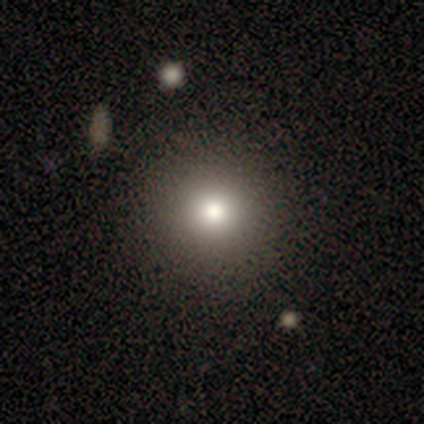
smooth-or-featured: smooth: 40% (tied) | star or artifact: 40% (tied) | featured or disk: 20%
  how-rounded: round: 100% | in between: 0% | cigar-shaped: 0%
  merging: none: 100% | minor disturbance: 0% | major disturbance: 0% | merger: 0%